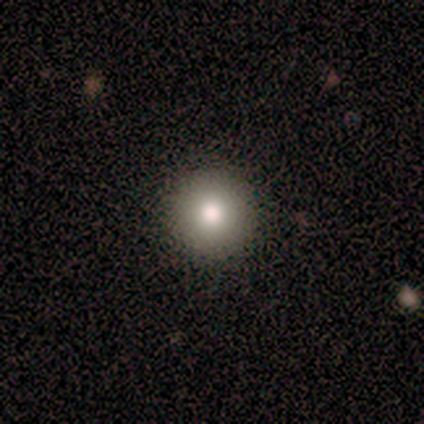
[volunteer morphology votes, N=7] Smooth or featured: smooth — 86% (featured or disk — 14%)
How rounded: round — 100%
Merging: none — 100%